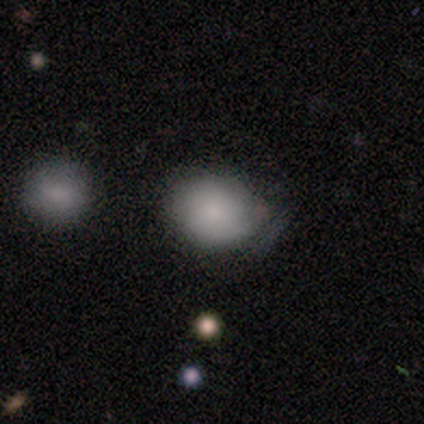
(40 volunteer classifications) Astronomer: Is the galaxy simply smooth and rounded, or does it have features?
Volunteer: smooth — 72%.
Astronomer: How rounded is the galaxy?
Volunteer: round — 62% (runner-up: in between, 38%).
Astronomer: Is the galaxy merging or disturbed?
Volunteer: none — 41% (runner-up: minor disturbance, 36%).